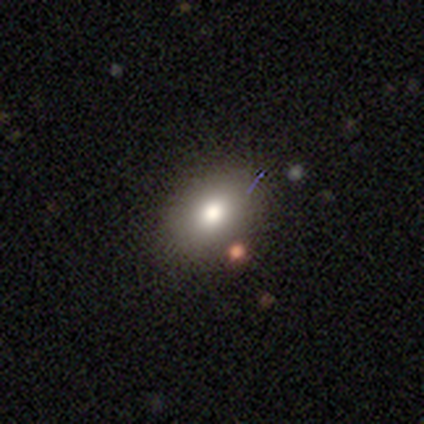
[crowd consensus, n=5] Overall: smooth (80%). How rounded: in between (100%). Merging: none (100%).